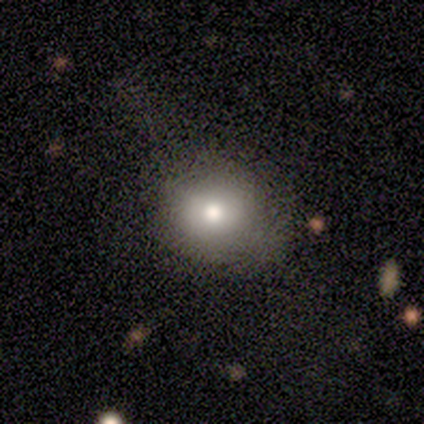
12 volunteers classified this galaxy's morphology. Smooth or featured?
  - smooth: 67% *
  - featured or disk: 25%
  - star or artifact: 8%
How rounded?
  - round: 88% *
  - in between: 12%
  - cigar-shaped: 0%
Merging?
  - none: 64% *
  - minor disturbance: 18%
  - major disturbance: 9%
  - merger: 9%